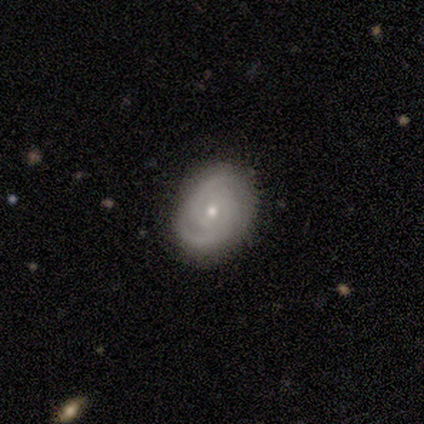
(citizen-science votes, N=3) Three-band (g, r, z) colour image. It shows a smooth galaxy with no disk features (33%, tied with featured or disk and star or artifact) that is in between round and cigar-shaped (100%). Merging: none (100%).